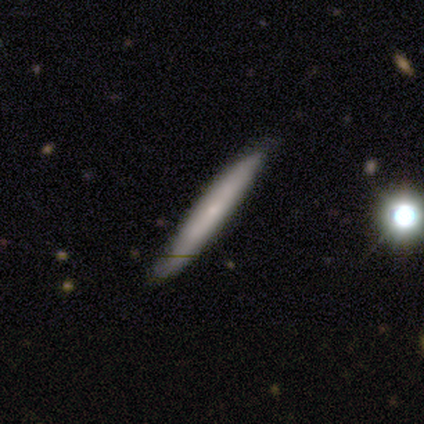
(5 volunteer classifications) smooth-or-featured: smooth: 60% | featured or disk: 20% | star or artifact: 20%
  how-rounded: cigar-shaped: 100% | round: 0% | in between: 0%
  merging: none: 100% | minor disturbance: 0% | major disturbance: 0% | merger: 0%